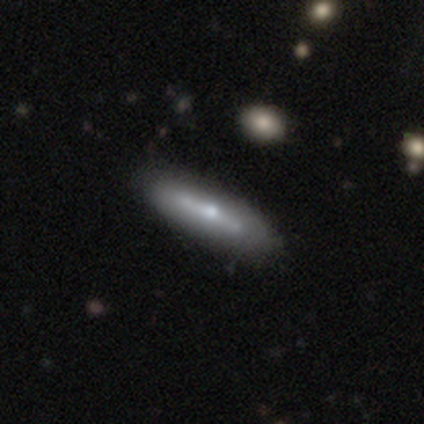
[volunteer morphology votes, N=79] Smooth or featured? featured or disk (62%)
Edge-on disk? yes (59%)
Edge-on bulge? rounded (79%)
Merging? none (40%)